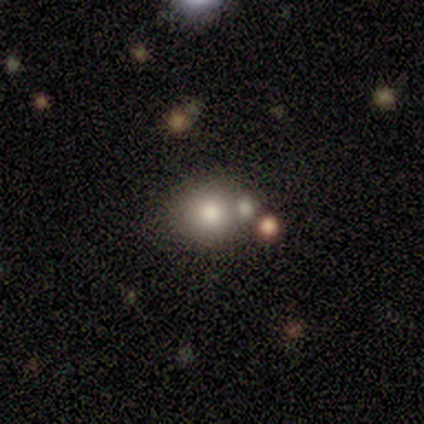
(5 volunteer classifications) Q: Smooth or featured?
A: smooth (100%)
Q: How rounded?
A: round (100%)
Q: Merging?
A: none (100%)